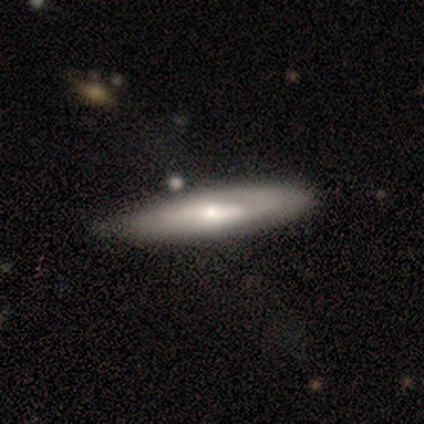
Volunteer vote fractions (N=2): This is possibly a smooth galaxy (50%, tied with featured or disk). How rounded: clearly cigar-shaped (100%). Merging: clearly none (100%).